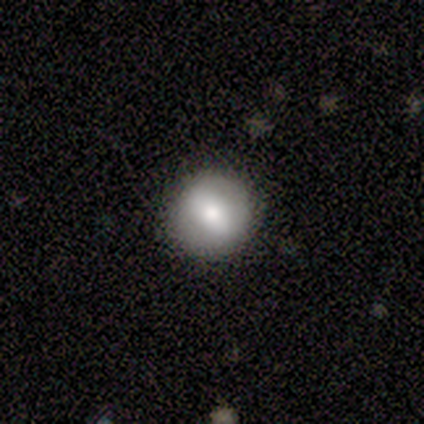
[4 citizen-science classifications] Smooth or featured? 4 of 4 (100%) said smooth. How rounded? 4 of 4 (100%) said round. Merging? 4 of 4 (100%) said none.